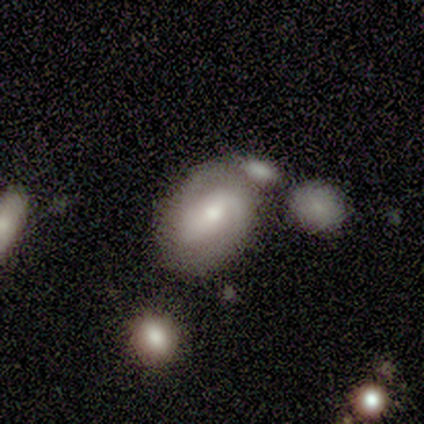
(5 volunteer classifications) Q: Smooth or featured?
A: featured or disk (80%); runner-up: star or artifact (20%)
Q: Edge-on disk?
A: no (100%)
Q: Bar?
A: weak (75%); runner-up: no (25%)
Q: Spiral arms?
A: yes (75%); runner-up: no (25%)
Q: Spiral winding?
A: tight (67%); runner-up: medium (33%)
Q: Spiral arm count?
A: 2 (100%)
Q: Bulge size?
A: large (50%); tied with: moderate (50%)
Q: Merging?
A: minor disturbance (50%); runner-up: none (25%)